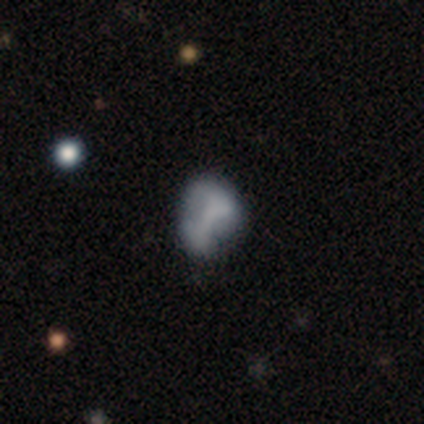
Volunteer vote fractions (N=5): featured or disk 60%, smooth 40%, star or artifact 0%. Down the decision tree: edge-on disk — no (100%); bar — no (67%); spiral arms — no (100%); bulge size — none (100%); merging — major disturbance (60%).